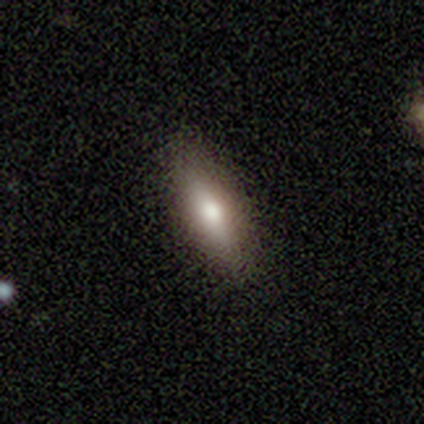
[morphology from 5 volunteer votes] featured or disk 60%, smooth 40%, star or artifact 0%. Down the decision tree: edge-on disk — yes (100%); edge-on bulge — rounded (100%); merging — none (100%).